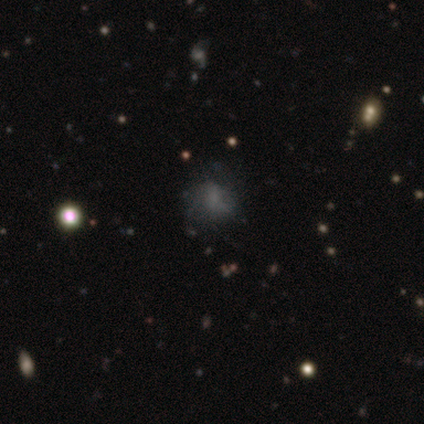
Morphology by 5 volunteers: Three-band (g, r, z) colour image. It shows a smooth galaxy with no disk features (40%, tied with featured or disk) that is round (100%). Merging: none (75%).